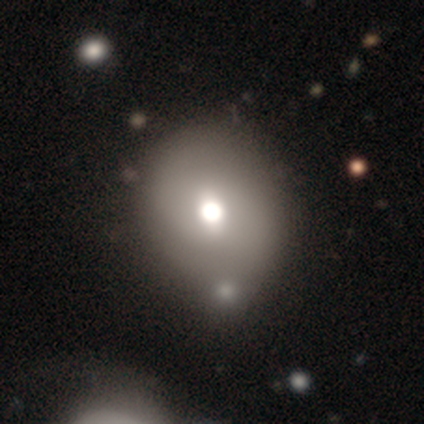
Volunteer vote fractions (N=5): Volunteers were most divided on "smooth or featured" (2-way tie): smooth: 40%, featured or disk: 40%, star or artifact: 20%; "how rounded" (2-way tie): round: 50%, in between: 50%, cigar-shaped: 0%. More confident: merging — minor disturbance (75%).